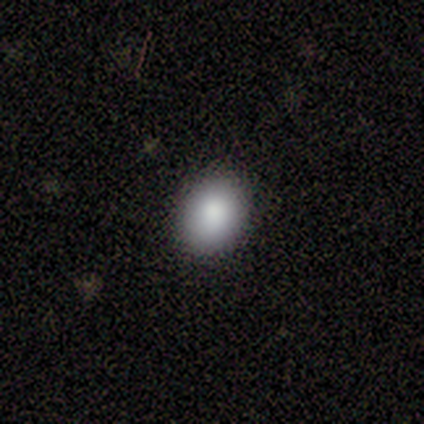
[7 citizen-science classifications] smooth 57%, featured or disk 29%, star or artifact 14%. Down the decision tree: how rounded — round (50%, tied with in between); merging — none (83%).